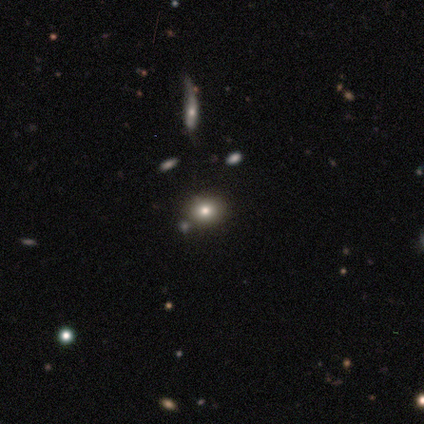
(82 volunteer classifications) Q: Smooth or featured?
A: smooth (63%); runner-up: star or artifact (20%)
Q: How rounded?
A: round (54%); runner-up: in between (44%)
Q: Merging?
A: none (82%); runner-up: minor disturbance (11%)